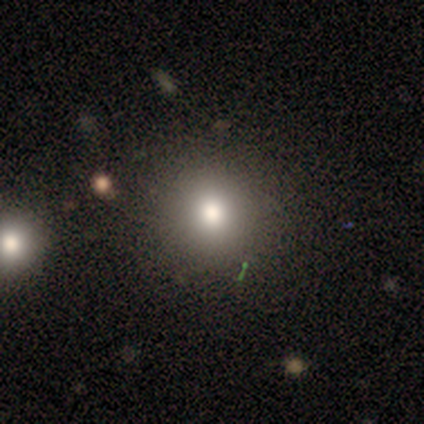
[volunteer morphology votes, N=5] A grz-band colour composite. It shows a smooth galaxy with no disk features (60%) that is round (100%). Merging: none (75%).